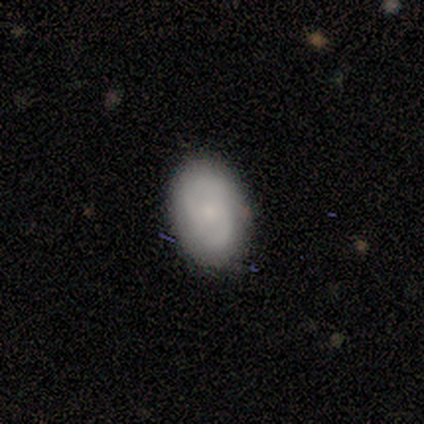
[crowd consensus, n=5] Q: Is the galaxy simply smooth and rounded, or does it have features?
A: smooth — 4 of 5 (80%).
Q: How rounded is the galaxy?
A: round — 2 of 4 (50%, tied with in between).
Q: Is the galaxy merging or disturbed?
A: none — 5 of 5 (100%).